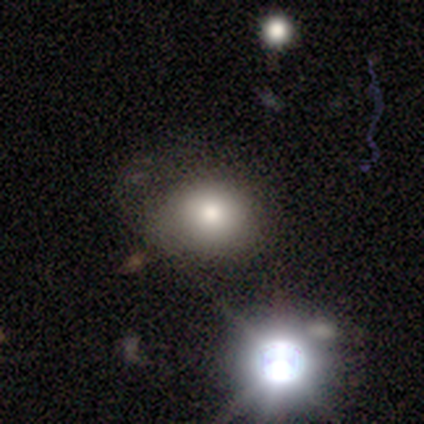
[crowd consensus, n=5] This is clearly a smooth galaxy (100%). How rounded: clearly in between (100%). Merging: clearly none (80%).